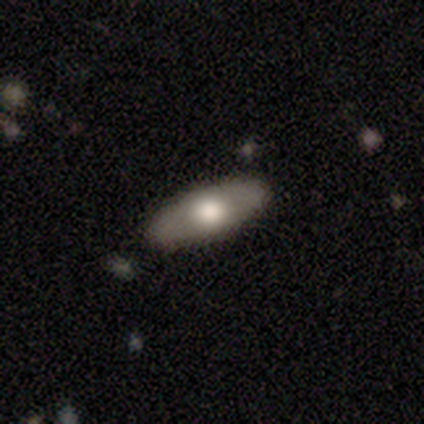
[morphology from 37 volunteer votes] Smooth or featured: smooth — 57% (featured or disk — 43%)
How rounded: in between — 81% (cigar-shaped — 19%)
Merging: none — 89% (minor disturbance — 8%)